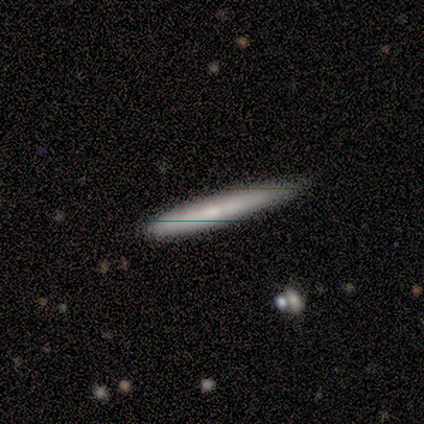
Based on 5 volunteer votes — A smooth galaxy with no disk features (60%) that is cigar-shaped (100%). Merging: none (100%).